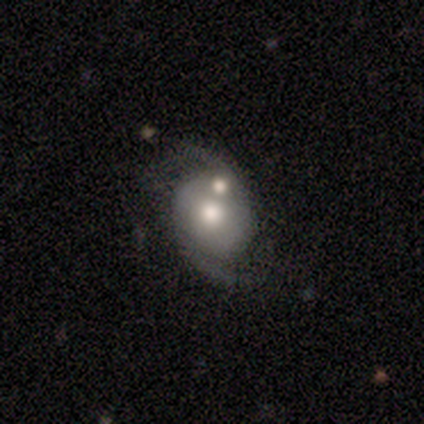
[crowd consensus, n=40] Smooth or featured? 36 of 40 (90%) said featured or disk. Edge-on disk? 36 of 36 (100%) said no. Bar? 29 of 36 (81%) said no. Spiral arms? 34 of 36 (94%) said yes. Spiral winding? 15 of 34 (44%) said loose. Spiral arm count? 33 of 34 (97%) said 2. Bulge size? 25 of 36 (69%) said moderate. Merging? 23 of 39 (59%) said none.